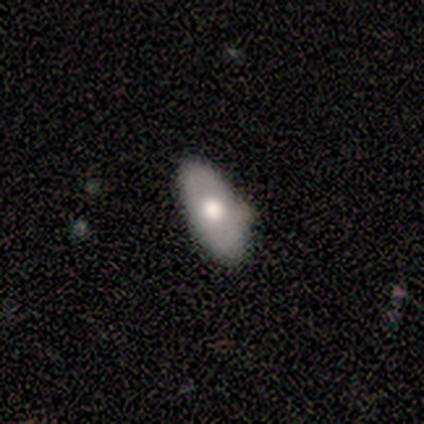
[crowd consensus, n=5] Smooth or featured?
  - smooth: 80% *
  - featured or disk: 20%
  - star or artifact: 0%
How rounded?
  - in between: 75% *
  - cigar-shaped: 25%
  - round: 0%
Merging?
  - minor disturbance: 60% *
  - none: 40%
  - major disturbance: 0%
  - merger: 0%